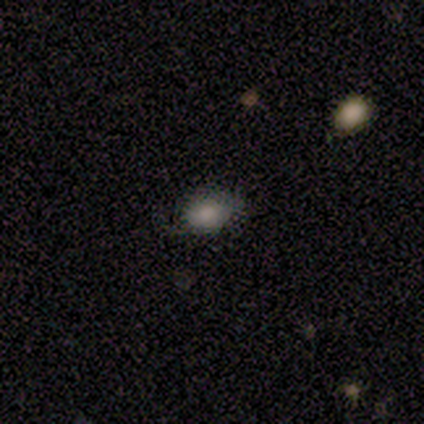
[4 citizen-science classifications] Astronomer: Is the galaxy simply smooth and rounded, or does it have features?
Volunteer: smooth — 100%.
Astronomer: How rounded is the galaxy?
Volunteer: in between — 100%.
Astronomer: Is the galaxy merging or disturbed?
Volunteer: none — 75%.